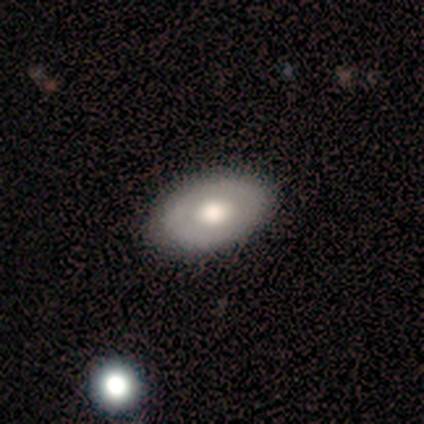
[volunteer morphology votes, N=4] Smooth or featured?
  - smooth: 50% * (tied)
  - featured or disk: 50% * (tied)
  - star or artifact: 0%
How rounded?
  - in between: 100% *
  - round: 0%
  - cigar-shaped: 0%
Merging?
  - none: 100% *
  - minor disturbance: 0%
  - major disturbance: 0%
  - merger: 0%